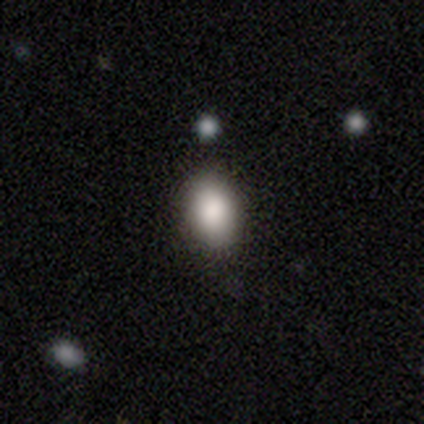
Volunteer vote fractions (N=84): Volunteers were most divided on "how rounded": in between: 79%, round: 18%, cigar-shaped: 3%. More confident: smooth or featured — smooth (86%); merging — none (82%).